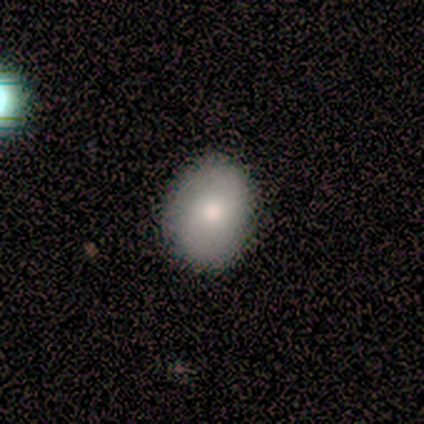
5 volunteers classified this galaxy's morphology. smooth-or-featured: smooth: 80% | featured or disk: 20% | star or artifact: 0%
  how-rounded: in between: 100% | round: 0% | cigar-shaped: 0%
  merging: none: 100% | minor disturbance: 0% | major disturbance: 0% | merger: 0%